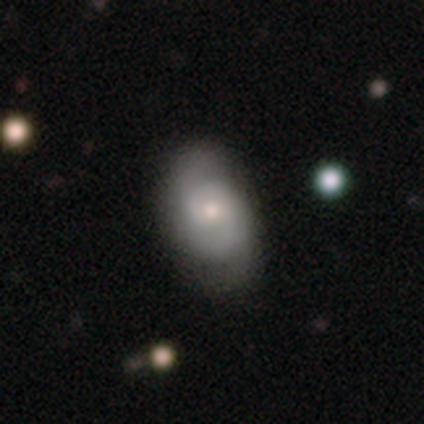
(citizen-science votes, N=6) A featured or disk galaxy (67%) with no bar (75%), 2 (67%) tight (67%) spiral arms (75%) and a moderate central bulge (75%).

Vote fractions:
- Smooth or featured? featured or disk: 67% / smooth: 33% / star or artifact: 0%
- Edge-on disk? no: 100% / yes: 0%
- Bar? no: 75% / weak: 25% / strong: 0%
- Spiral arms? yes: 75% / no: 25%
- Spiral winding? tight: 67% / medium: 33% / loose: 0%
- Spiral arm count? 2: 67% / can't tell: 33% / 1: 0% / 3: 0% / 4: 0% / more than 4: 0%
- Bulge size? moderate: 75% / small: 25% / dominant: 0% / large: 0% / none: 0%
- Merging? none: 50% (tied) / minor disturbance: 50% (tied) / major disturbance: 0% / merger: 0%